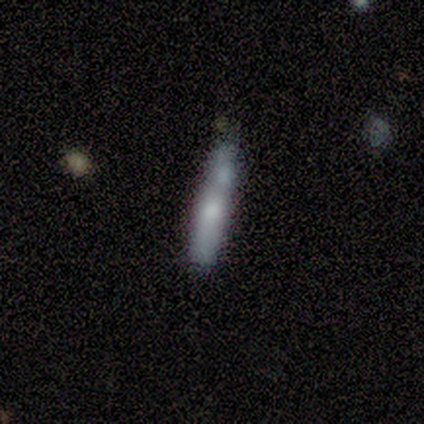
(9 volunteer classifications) featured or disk 56%, smooth 44%, star or artifact 0%. Down the decision tree: edge-on disk — yes (100%); edge-on bulge — rounded (80%); merging — minor disturbance (33%).